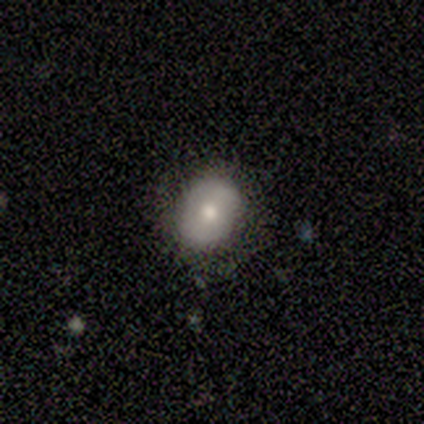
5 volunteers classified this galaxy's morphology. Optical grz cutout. It shows a smooth galaxy with no disk features (80%) that is in between round and cigar-shaped (75%). Merging: none (80%).